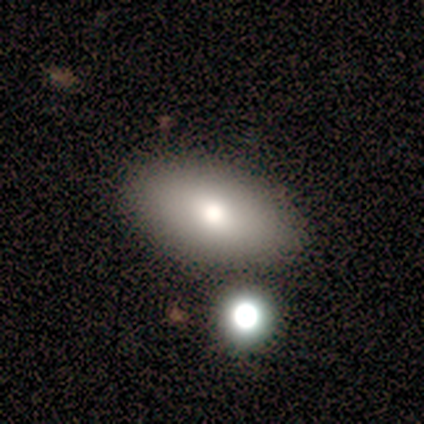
smooth 75%, star or artifact 25%, featured or disk 0%. Down the decision tree: how rounded — in between (100%); merging — none (67%).